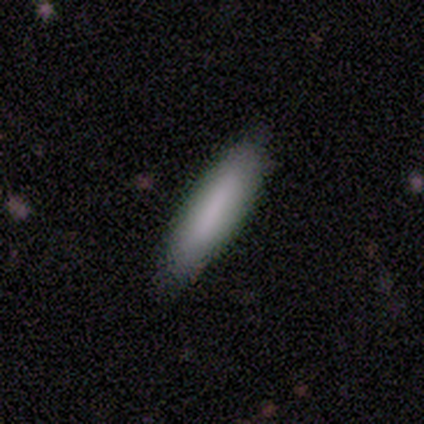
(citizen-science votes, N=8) smooth-or-featured: smooth: 88% | featured or disk: 12% | star or artifact: 0%
  how-rounded: cigar-shaped: 86% | in between: 14% | round: 0%
  merging: none: 88% | minor disturbance: 12% | major disturbance: 0% | merger: 0%